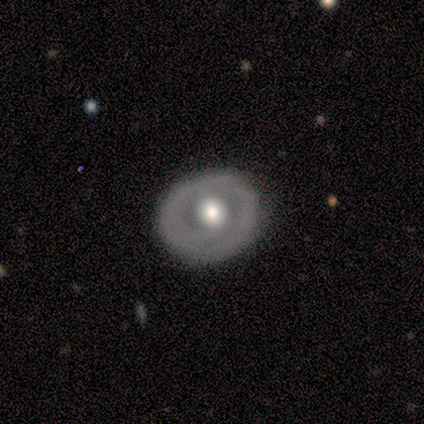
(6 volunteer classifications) smooth_or_featured: smooth (p=0.50) [tied with: featured or disk p=0.50]
how_rounded: round (p=0.67) [alt: in between p=0.33]
merging: none (p=1.00)